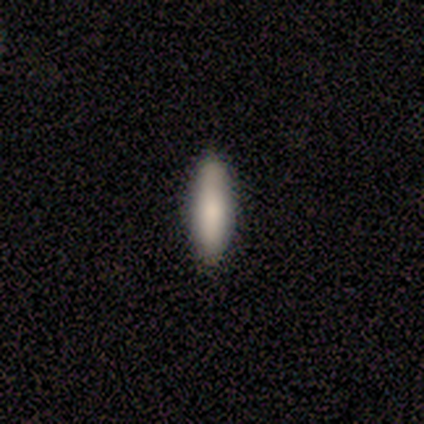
Q: Smooth or featured?
A: smooth (100%)
Q: How rounded?
A: cigar-shaped (60%); runner-up: in between (40%)
Q: Merging?
A: none (100%)